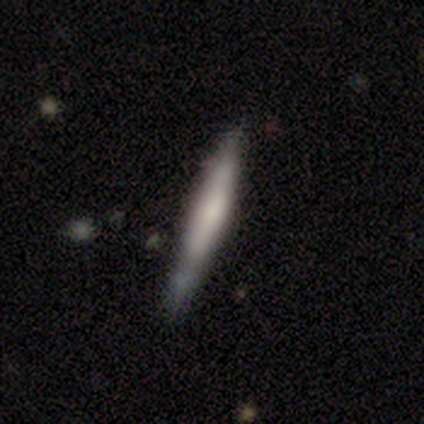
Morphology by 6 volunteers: Smooth or featured? smooth (67%)
How rounded? cigar-shaped (75%)
Merging? minor disturbance (67%)